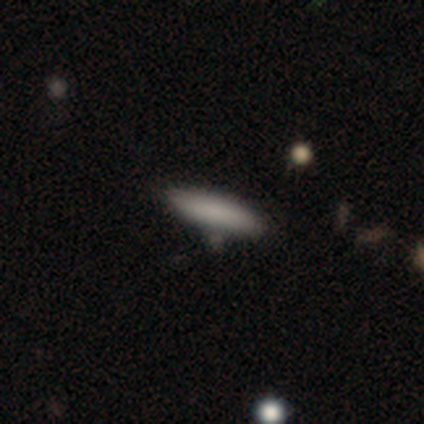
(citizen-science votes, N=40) A smooth galaxy with no disk features (90%) that is cigar-shaped (83%). Merging: none (77%).